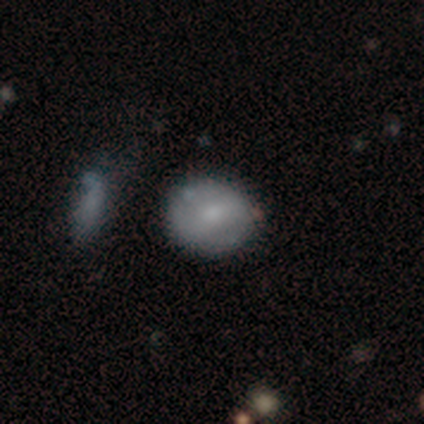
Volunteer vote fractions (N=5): Volunteers were most divided on "merging": none: 60%, minor disturbance: 40%, major disturbance: 0%, merger: 0%. More confident: smooth or featured — smooth (100%); how rounded — round (60%).